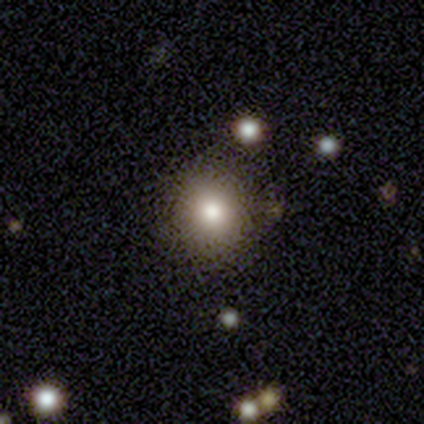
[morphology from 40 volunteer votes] Volunteers were most divided on "smooth or featured": smooth: 62%, star or artifact: 20%, featured or disk: 18%. More confident: how rounded — round (92%); merging — none (84%).